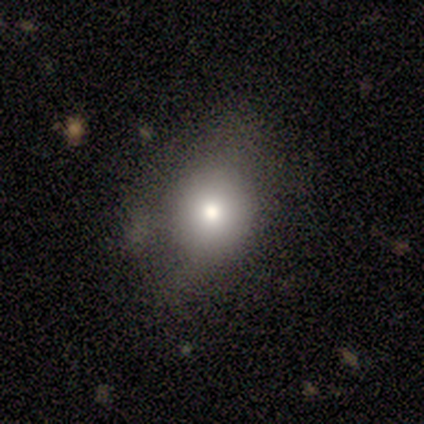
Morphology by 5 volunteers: Smooth or featured? 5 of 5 (100%) said smooth. How rounded? 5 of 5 (100%) said round. Merging? 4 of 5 (80%) said none.